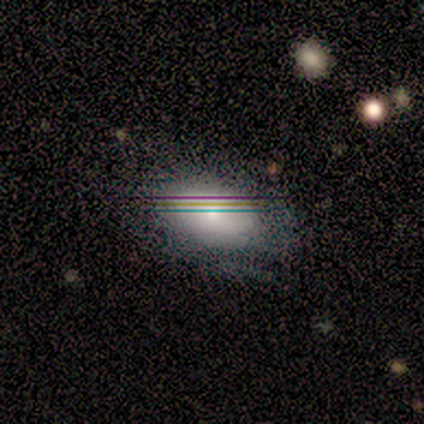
This is marginally a featured or disk galaxy (40%, tied with star or artifact). It is clearly not viewed edge-on (100%). Bar: possibly weak (50%, tied with no). Spiral arm pattern: clearly no (100%). Central bulge: possibly moderate (50%, tied with small). Merging: likely none (67%).